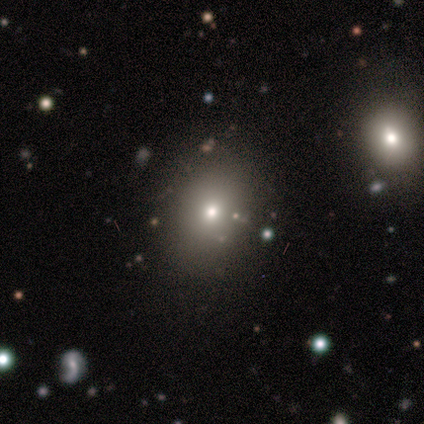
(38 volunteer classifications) Volunteers were most divided on "how rounded": in between: 64%, round: 36%, cigar-shaped: 0%. More confident: smooth or featured — smooth (74%); merging — none (62%).